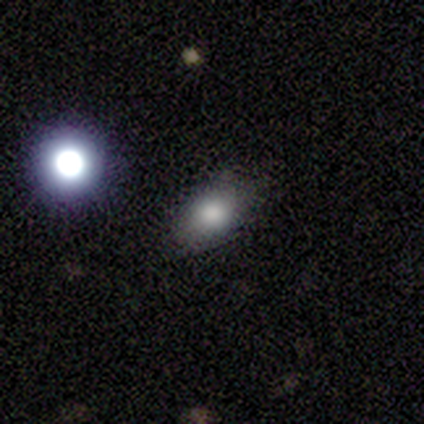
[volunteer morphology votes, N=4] This appears to be a smooth galaxy with no disk features (100%) that is in between round and cigar-shaped (75%). Merging: none (100%).